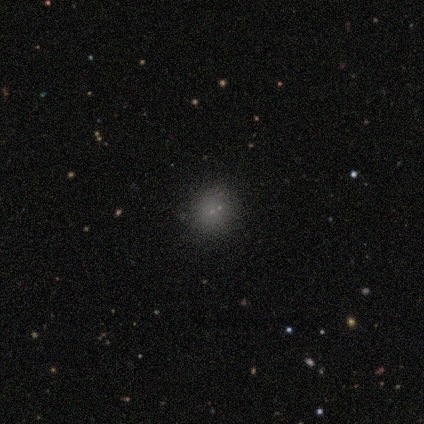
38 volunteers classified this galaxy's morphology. smooth-or-featured: smooth: 68% | featured or disk: 21% | star or artifact: 11%
  how-rounded: round: 85% | in between: 15% | cigar-shaped: 0%
  merging: none: 71% | merger: 21% | minor disturbance: 9% | major disturbance: 0%